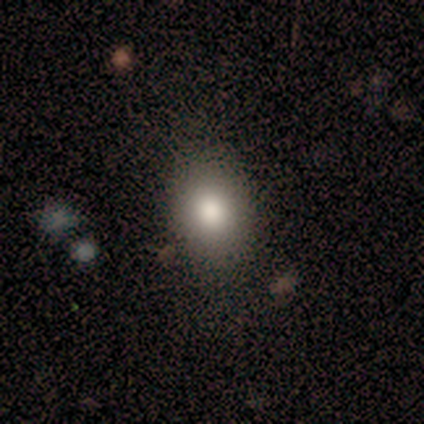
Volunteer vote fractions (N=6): This is likely a smooth galaxy (67%). How rounded: likely in between (75%). Merging: clearly none (80%).